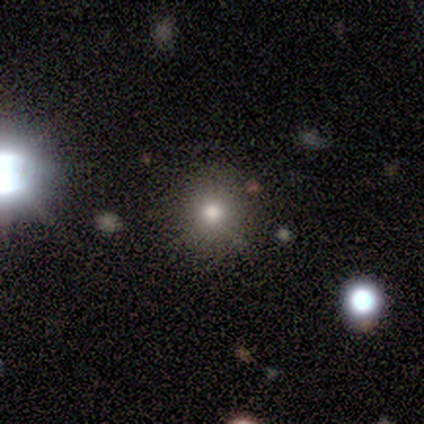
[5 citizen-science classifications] Volunteers were most divided on "smooth or featured": star or artifact: 60%, smooth: 40%, featured or disk: 0%.